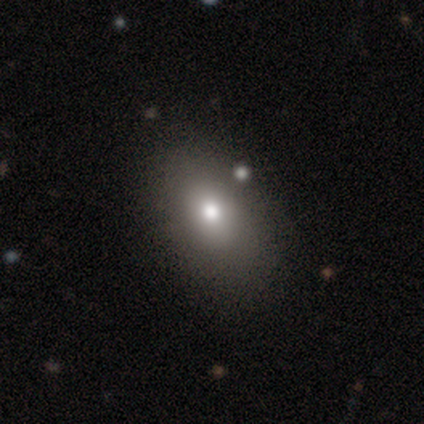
This is likely a star or artifact rather than a galaxy (67%).